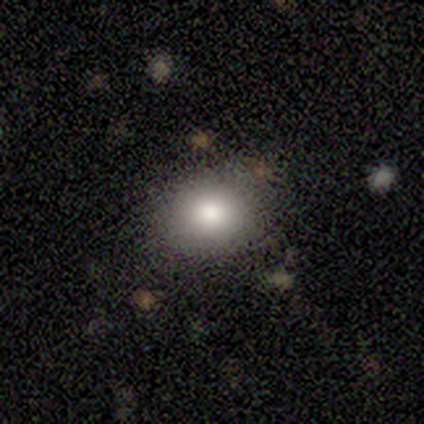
Consensus on every question: smooth or featured — smooth (100%); how rounded — round (100%); merging — none (100%).